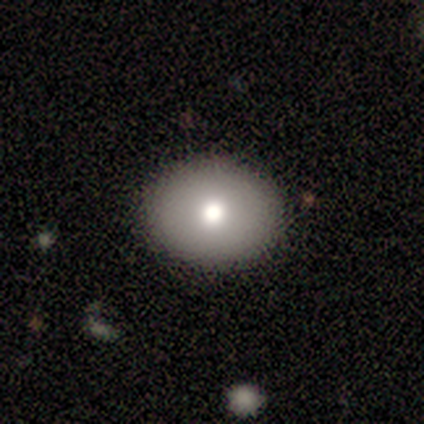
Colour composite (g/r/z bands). It shows a smooth galaxy with no disk features (100%) that is in between round and cigar-shaped (80%). Merging: none (100%).